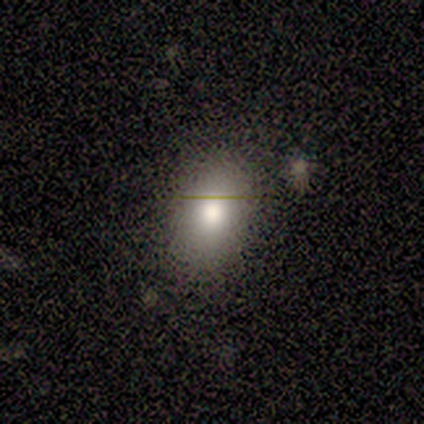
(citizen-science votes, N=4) Smooth or featured? 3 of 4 (75%) said smooth. How rounded? 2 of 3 (67%) said in between. Merging? 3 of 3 (100%) said none.